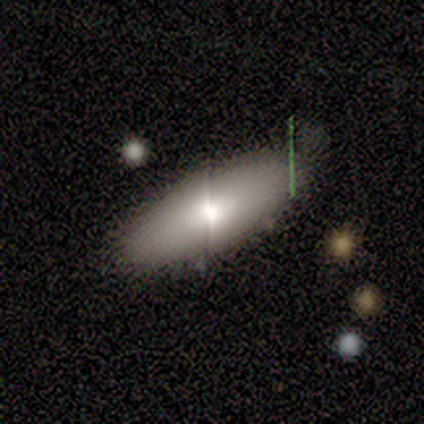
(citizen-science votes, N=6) smooth 83%, featured or disk 17%, star or artifact 0%. Down the decision tree: how rounded — in between (100%); merging — none (83%).